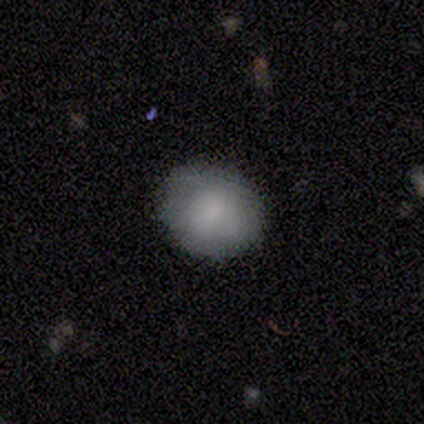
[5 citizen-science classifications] Overall: smooth (80%). How rounded: round (100%). Merging: none (100%).